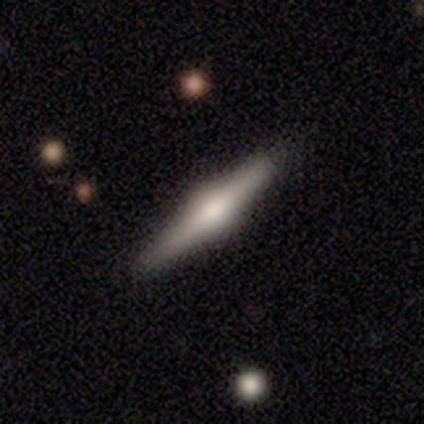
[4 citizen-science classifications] Overall: featured or disk (100%). Edge-on disk: yes (100%). Edge-on bulge: rounded (75%). Merging: none (75%).